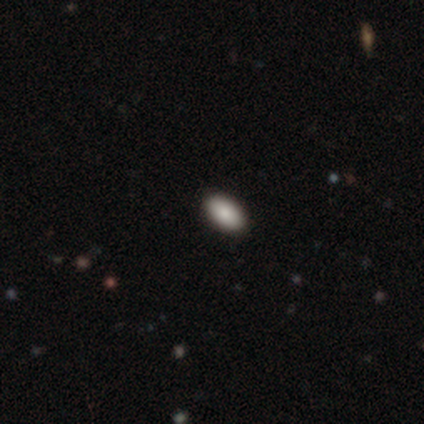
A smooth galaxy with no disk features (80%) that is in between round and cigar-shaped (100%). Merging: none (80%).